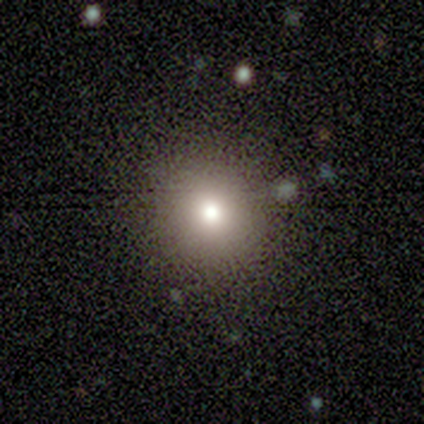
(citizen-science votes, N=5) Smooth or featured? 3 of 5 (60%) said star or artifact.